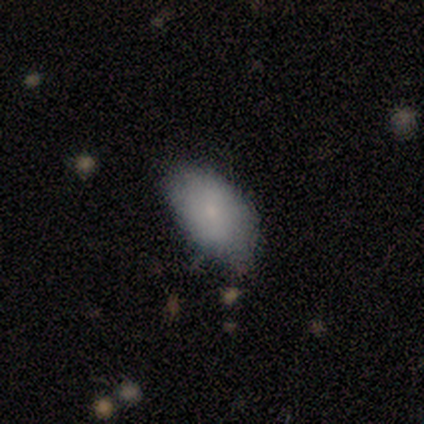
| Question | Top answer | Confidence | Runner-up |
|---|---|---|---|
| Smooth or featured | smooth | 100% | — |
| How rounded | in between | 80% | round (20%) |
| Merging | none | 80% | minor disturbance (20%) |